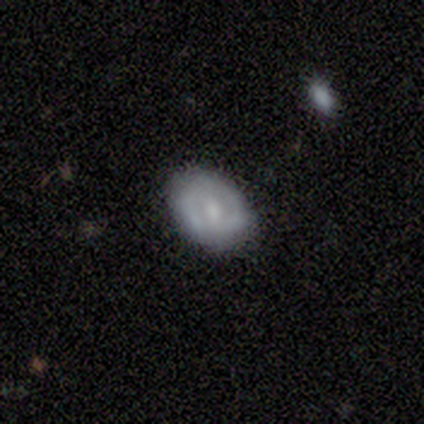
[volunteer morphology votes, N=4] Smooth or featured?
  - smooth: 50% * (tied)
  - featured or disk: 50% * (tied)
  - star or artifact: 0%
How rounded?
  - in between: 100% *
  - round: 0%
  - cigar-shaped: 0%
Merging?
  - none: 100% *
  - minor disturbance: 0%
  - major disturbance: 0%
  - merger: 0%